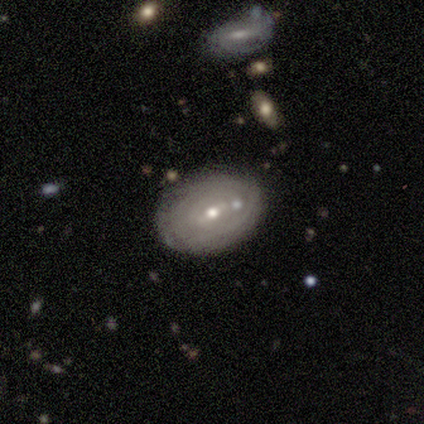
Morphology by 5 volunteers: A smooth galaxy with no disk features (60%) that is round (67%).

Vote fractions:
- Smooth or featured? smooth: 60% / featured or disk: 40% / star or artifact: 0%
- How rounded? round: 67% / in between: 33% / cigar-shaped: 0%
- Merging? none: 60% / minor disturbance: 20% / merger: 20% / major disturbance: 0%